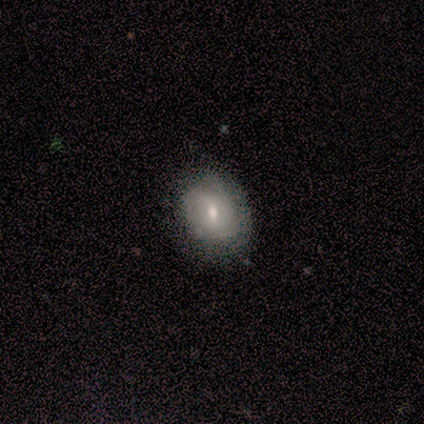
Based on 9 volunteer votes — smooth 89%, featured or disk 11%, star or artifact 0%. Down the decision tree: how rounded — round (50%, tied with in between); merging — minor disturbance (44%).